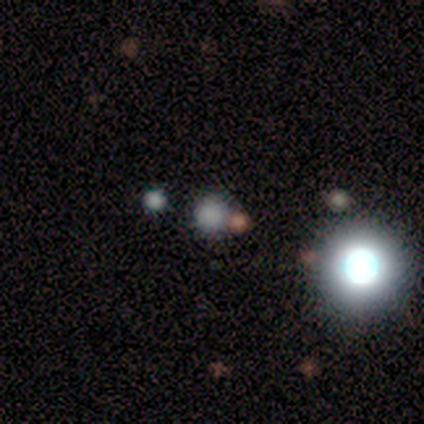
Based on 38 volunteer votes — smooth_or_featured: smooth (p=0.61) [alt: star or artifact p=0.32]
how_rounded: round (p=0.96) [alt: cigar-shaped p=0.04]
merging: none (p=0.77) [alt: merger p=0.15]